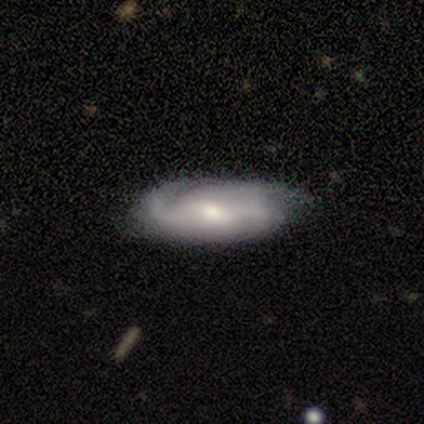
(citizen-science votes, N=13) Smooth or featured: featured or disk — 62% (smooth — 38%)
Edge-on disk: no — 100%
Bar: no — 50% (strong — 38%)
Spiral arms: yes — 88% (no — 12%)
Spiral winding: medium — 43% (tight — 29%)
Spiral arm count: 3 — 57% (can't tell — 29%)
Bulge size: small — 62% (moderate — 38%)
Merging: none — 77% (minor disturbance — 15%)